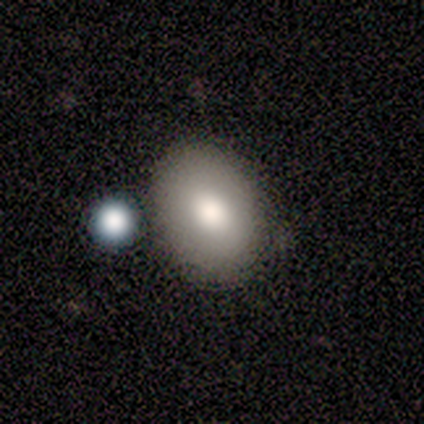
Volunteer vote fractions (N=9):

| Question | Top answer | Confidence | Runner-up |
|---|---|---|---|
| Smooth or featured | smooth | 56% | star or artifact (33%) |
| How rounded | in between | 80% | round (20%) |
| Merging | none | 100% | — |